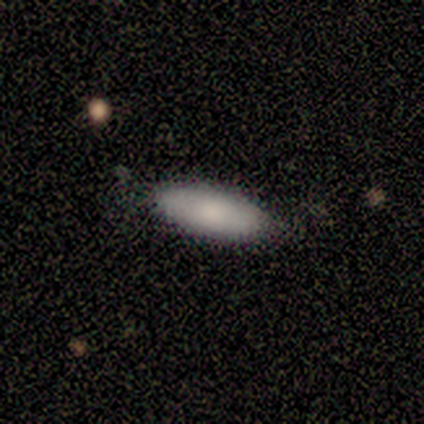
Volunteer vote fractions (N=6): Smooth or featured? 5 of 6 (83%) said smooth. How rounded? 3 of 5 (60%) said in between. Merging? 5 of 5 (100%) said none.